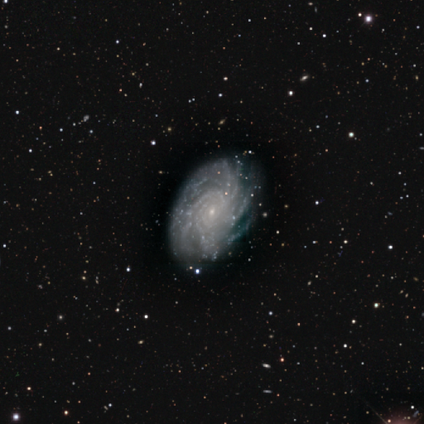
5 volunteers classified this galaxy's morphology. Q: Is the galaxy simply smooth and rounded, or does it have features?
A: featured or disk — 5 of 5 (100%).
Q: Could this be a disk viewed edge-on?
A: no — 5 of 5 (100%).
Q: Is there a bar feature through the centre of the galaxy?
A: weak — 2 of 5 (40%, tied with no).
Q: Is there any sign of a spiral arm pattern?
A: yes — 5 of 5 (100%).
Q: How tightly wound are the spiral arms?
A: tight — 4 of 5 (80%).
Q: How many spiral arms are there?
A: more than 4 — 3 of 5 (60%).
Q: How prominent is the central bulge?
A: small — 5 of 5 (100%).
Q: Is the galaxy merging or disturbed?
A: none — 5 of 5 (100%).